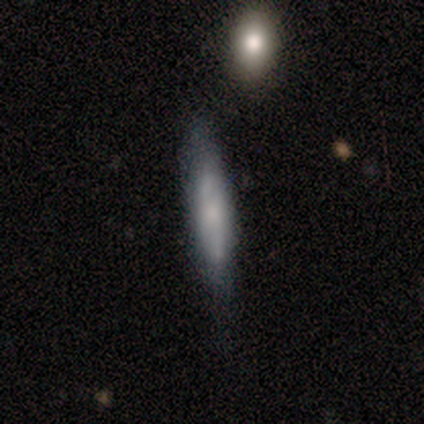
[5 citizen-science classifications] Morphology: type=featured or disk (60%); edge-on=yes (100%); edge-on bulge=none (67%); merging=none (80%).